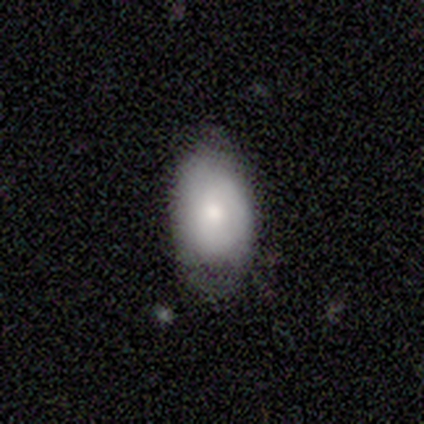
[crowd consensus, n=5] Smooth or featured? 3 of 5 (60%) said featured or disk. Edge-on disk? 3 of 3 (100%) said no. Bar? 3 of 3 (100%) said no. Spiral arms? 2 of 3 (67%) said no. Bulge size? 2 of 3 (67%) said moderate. Merging? 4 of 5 (80%) said none.